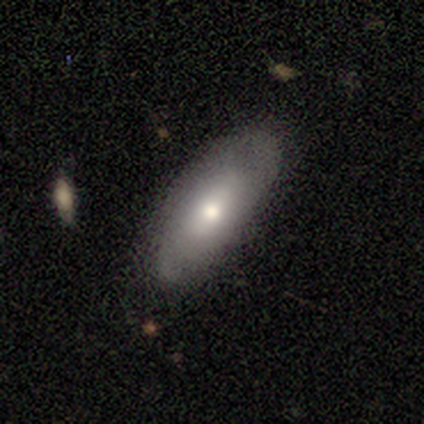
Overall: featured or disk (60%; smooth 40%). Edge-on disk: no (100%). Bar: no (100%). Spiral arms: no (67%; yes 33%). Bulge size: moderate (67%; small 33%). Merging: none (80%).